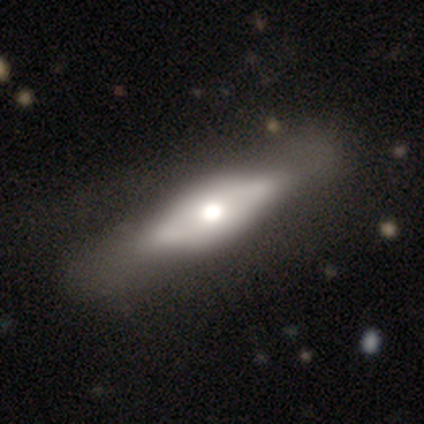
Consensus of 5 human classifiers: Q: Smooth or featured?
A: smooth (60%); runner-up: featured or disk (40%)
Q: How rounded?
A: cigar-shaped (67%); runner-up: in between (33%)
Q: Merging?
A: minor disturbance (40%); tied with: major disturbance (40%)